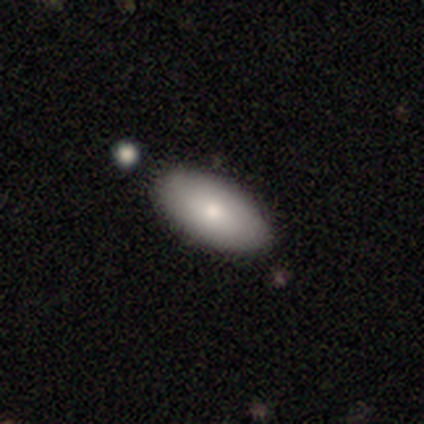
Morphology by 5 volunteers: Smooth or featured: smooth — 80% (featured or disk — 20%)
How rounded: in between — 100%
Merging: none — 80% (merger — 20%)